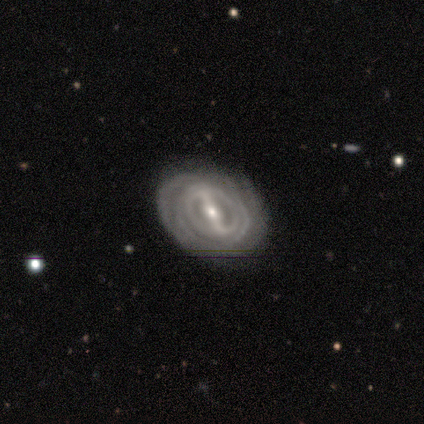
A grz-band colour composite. It shows a featured or disk galaxy (100%) with a strong bar (100%), tight (100%) spiral arms (100%) and a moderate central bulge (50%, tied with small). Merging: none (100%).